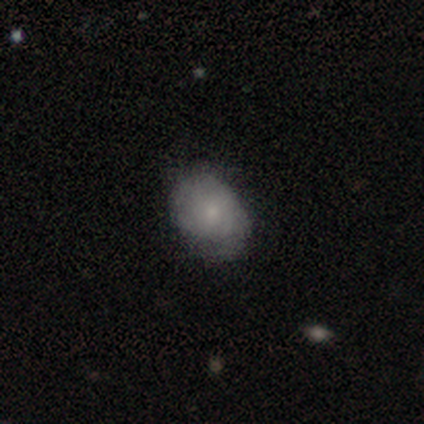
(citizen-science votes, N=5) A smooth galaxy with no disk features (60%) that is in between round and cigar-shaped (100%).

Vote fractions:
- Smooth or featured? smooth: 60% / featured or disk: 40% / star or artifact: 0%
- How rounded? in between: 100% / round: 0% / cigar-shaped: 0%
- Merging? minor disturbance: 60% / none: 40% / major disturbance: 0% / merger: 0%